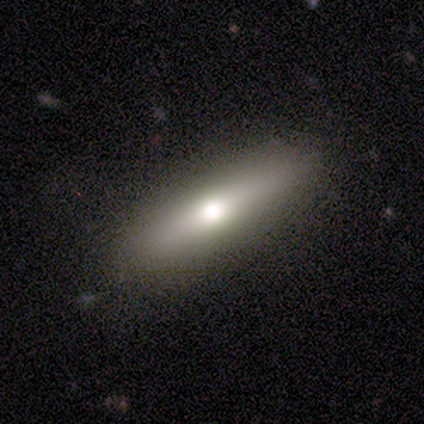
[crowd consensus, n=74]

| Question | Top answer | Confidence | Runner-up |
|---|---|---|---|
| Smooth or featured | smooth | 64% | featured or disk (31%) |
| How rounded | cigar-shaped | 70% | in between (28%) |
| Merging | none | 44% | merger (3%) |